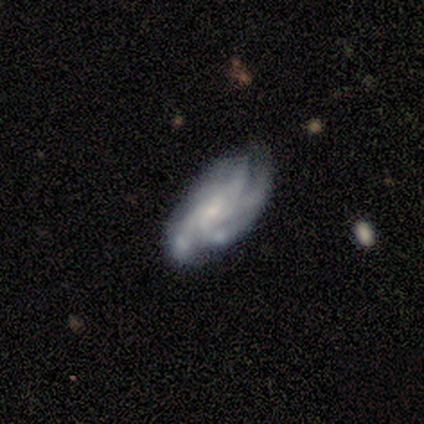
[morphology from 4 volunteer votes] A smooth galaxy with no disk features (50%, tied with featured or disk) that is in between round and cigar-shaped (100%).

Vote fractions:
- Smooth or featured? smooth: 50% (tied) / featured or disk: 50% (tied) / star or artifact: 0%
- How rounded? in between: 100% / round: 0% / cigar-shaped: 0%
- Merging? none: 75% / major disturbance: 25% / minor disturbance: 0% / merger: 0%